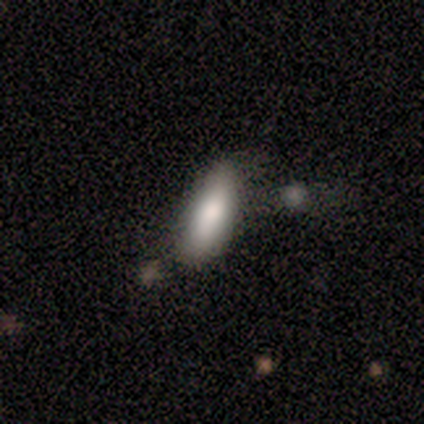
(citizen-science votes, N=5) Overall: smooth (100%). How rounded: in between (60%; cigar-shaped 40%). Merging: none (60%; minor disturbance 40%).